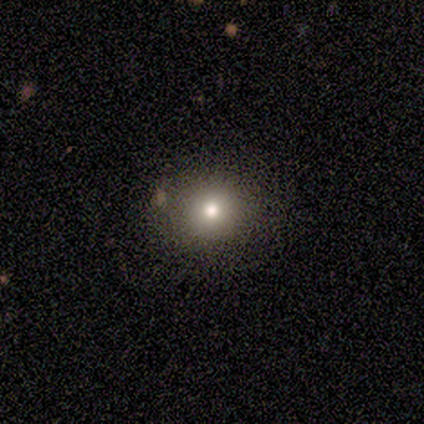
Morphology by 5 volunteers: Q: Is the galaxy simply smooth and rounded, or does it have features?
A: smooth — 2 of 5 (40%, tied with star or artifact).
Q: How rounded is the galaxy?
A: round — 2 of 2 (100%).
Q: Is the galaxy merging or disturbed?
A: none — 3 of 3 (100%).